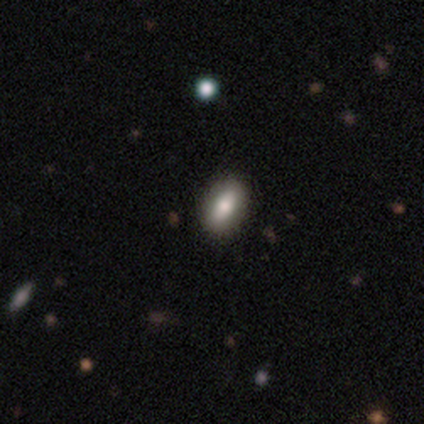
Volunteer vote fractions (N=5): Morphology: type=smooth (80%); roundness=in between (75%); merging=none (80%).